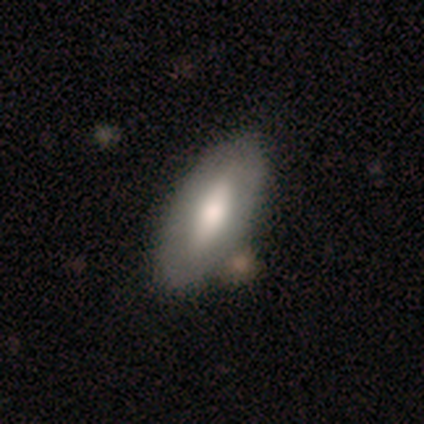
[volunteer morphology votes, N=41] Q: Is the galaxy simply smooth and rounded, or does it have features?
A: smooth — 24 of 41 (59%).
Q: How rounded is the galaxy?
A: in between — 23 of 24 (96%).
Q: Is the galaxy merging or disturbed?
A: none — 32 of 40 (80%).